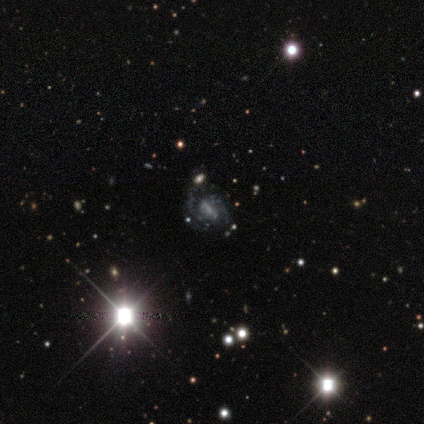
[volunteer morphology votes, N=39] type=featured or disk (72%); edge-on=no (100%); bar=strong (54%); spiral arms=yes (79%); winding=medium (45%); arm count=2 (82%); bulge=none (50%); merging=none (73%).